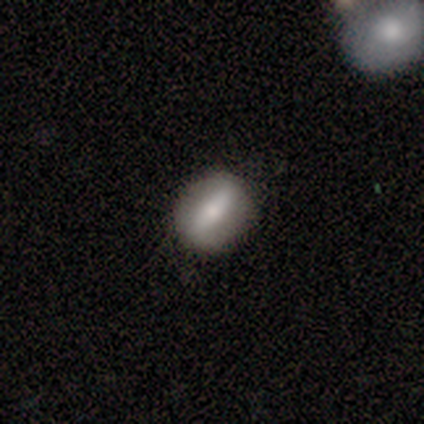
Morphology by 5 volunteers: type=smooth (60%); roundness=in between (67%); merging=none (80%).